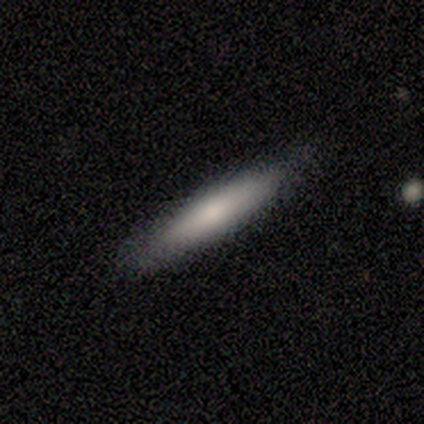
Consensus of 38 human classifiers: Smooth or featured? 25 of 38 (66%) said smooth. How rounded? 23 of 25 (92%) said cigar-shaped. Merging? 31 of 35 (89%) said none.